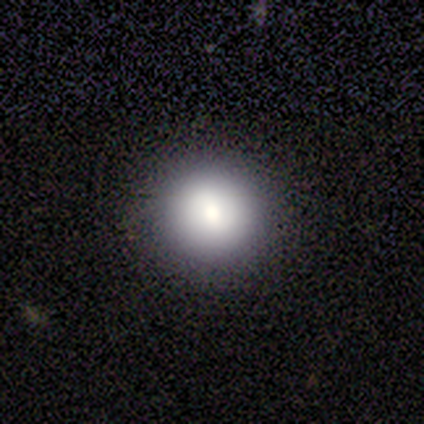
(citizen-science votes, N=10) smooth_or_featured: smooth (p=0.80) [alt: featured or disk p=0.10]
how_rounded: round (p=1.00)
merging: none (p=0.89) [alt: minor disturbance p=0.11]